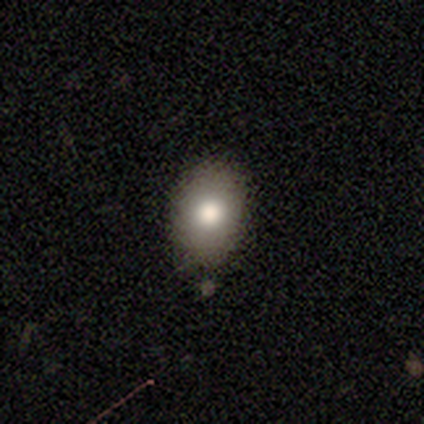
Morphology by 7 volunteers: smooth 86%, star or artifact 14%, featured or disk 0%. Down the decision tree: how rounded — in between (83%); merging — none (100%).